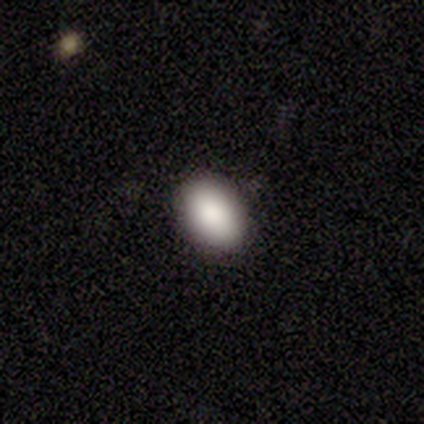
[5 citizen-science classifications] Morphology: type=smooth (80%); roundness=in between (100%); merging=none (100%).